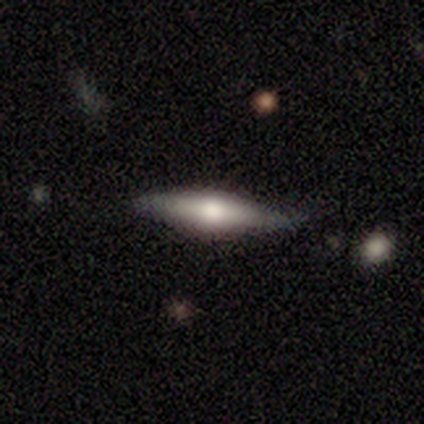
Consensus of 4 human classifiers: This appears to be a smooth galaxy with no disk features (50%, tied with featured or disk) that is in between round and cigar-shaped (50%, tied with cigar-shaped). Merging: none (75%).